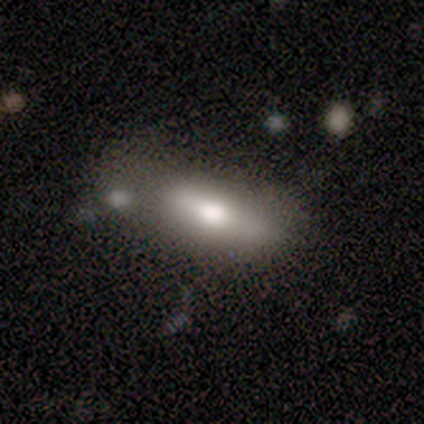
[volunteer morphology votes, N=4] A featured or disk galaxy (75%) viewed edge-on (67%) with a rounded central bulge (100%).

Vote fractions:
- Smooth or featured? featured or disk: 75% / smooth: 25% / star or artifact: 0%
- Edge-on disk? yes: 67% / no: 33%
- Edge-on bulge? rounded: 100% / boxy: 0% / none: 0%
- Merging? none: 75% / merger: 25% / minor disturbance: 0% / major disturbance: 0%